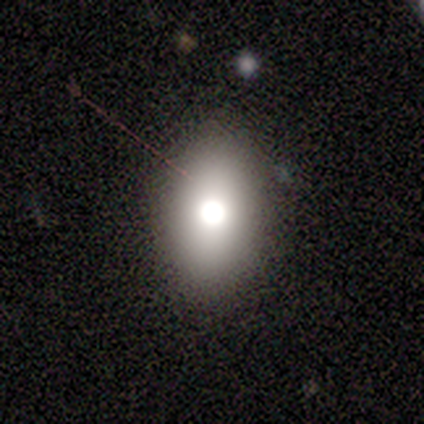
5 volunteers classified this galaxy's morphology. Overall: smooth (80%). How rounded: in between (75%). Merging: none (75%).